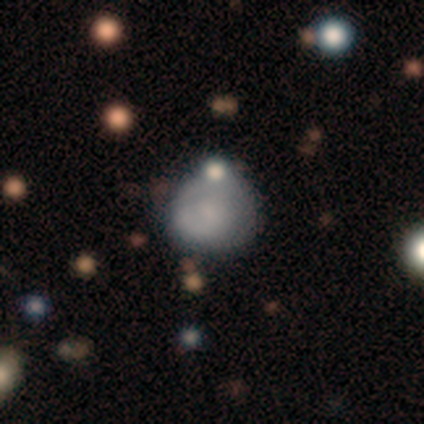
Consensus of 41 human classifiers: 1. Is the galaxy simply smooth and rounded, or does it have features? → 59% smooth, 32% featured or disk, 10% star or artifact.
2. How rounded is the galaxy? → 67% round, 33% in between, 0% cigar-shaped.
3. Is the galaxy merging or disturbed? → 41% none, 32% minor disturbance, 19% merger, 8% major disturbance.